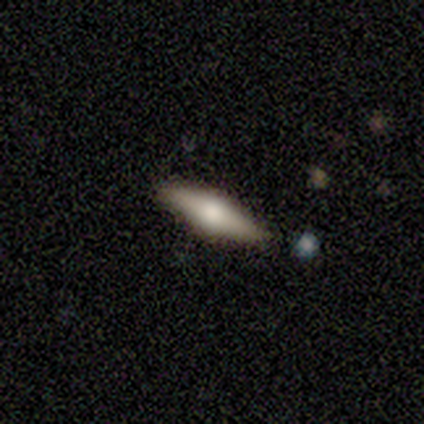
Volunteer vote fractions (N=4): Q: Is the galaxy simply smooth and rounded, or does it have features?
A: smooth — 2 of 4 (50%, tied with featured or disk).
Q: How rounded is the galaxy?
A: cigar-shaped — 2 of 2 (100%).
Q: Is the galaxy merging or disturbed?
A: none — 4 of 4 (100%).